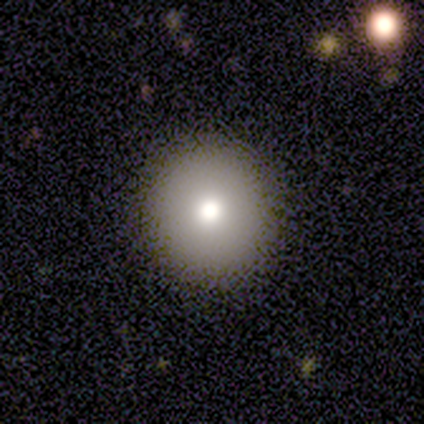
A smooth galaxy with no disk features (58%) that is round (100%). Merging: none (100%).